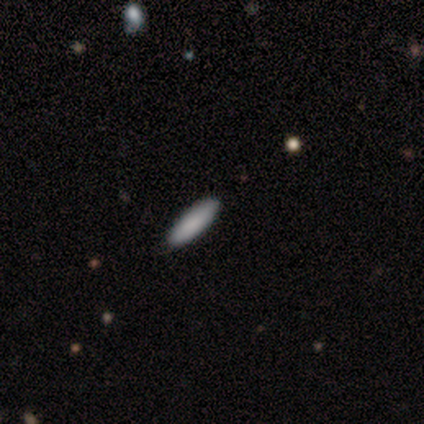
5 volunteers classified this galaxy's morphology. This appears to be a smooth galaxy with no disk features (100%) that is cigar-shaped (100%). Merging: none (100%).